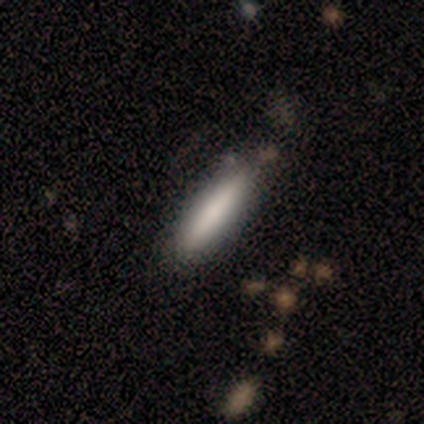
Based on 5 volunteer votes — smooth_or_featured: smooth (p=1.00)
how_rounded: in between (p=0.60) [alt: cigar-shaped p=0.40]
merging: none (p=0.80) [alt: minor disturbance p=0.20]